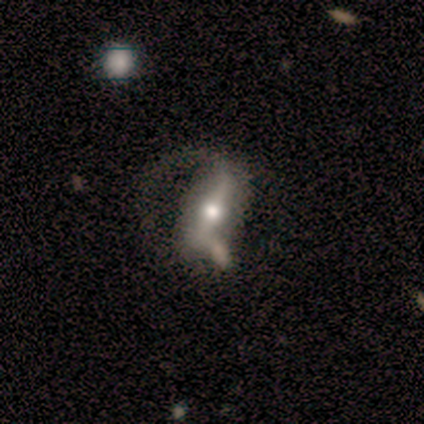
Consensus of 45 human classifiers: Smooth or featured: featured or disk — 69% (smooth — 18%)
Edge-on disk: no — 81% (yes — 19%)
Bar: strong — 68% (weak — 24%)
Spiral arms: yes — 68% (no — 32%)
Spiral winding: loose — 53% (medium — 29%)
Spiral arm count: 1 — 59% (2 — 29%)
Bulge size: moderate — 56% (small — 24%)
Merging: major disturbance — 46% (none — 21%)